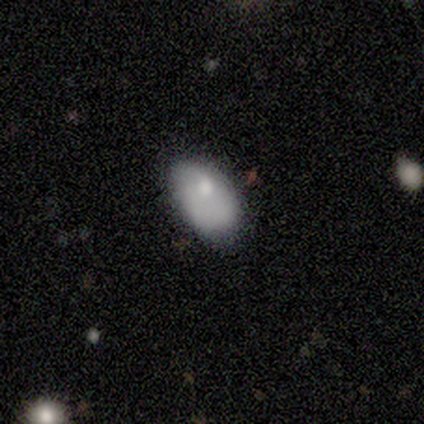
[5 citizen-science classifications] smooth-or-featured: smooth: 60% | featured or disk: 40% | star or artifact: 0%
  how-rounded: in between: 100% | round: 0% | cigar-shaped: 0%
  merging: none: 40% | minor disturbance: 20% | major disturbance: 20% | merger: 20%